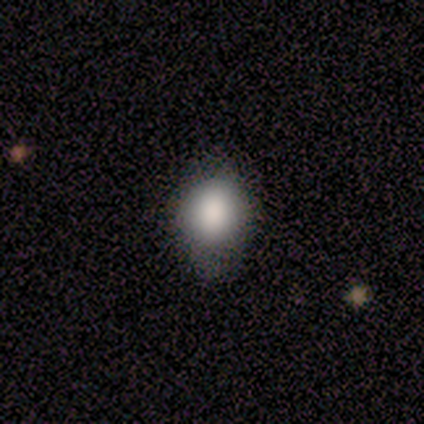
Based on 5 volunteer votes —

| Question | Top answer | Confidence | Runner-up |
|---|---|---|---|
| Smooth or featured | smooth | 80% | star or artifact (20%) |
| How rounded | in between | 75% | round (25%) |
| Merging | minor disturbance | 75% | none (25%) |